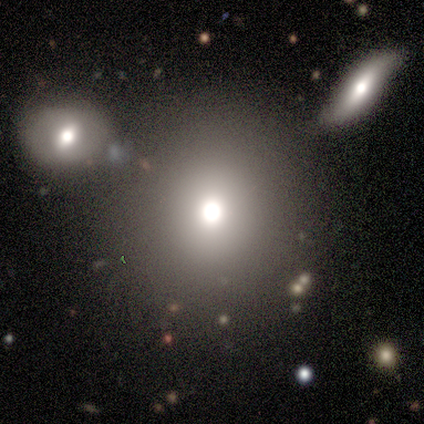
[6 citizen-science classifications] Q: Smooth or featured?
A: smooth (33%); tied with: featured or disk (33%); star or artifact (33%)
Q: How rounded?
A: round (100%)
Q: Merging?
A: none (100%)